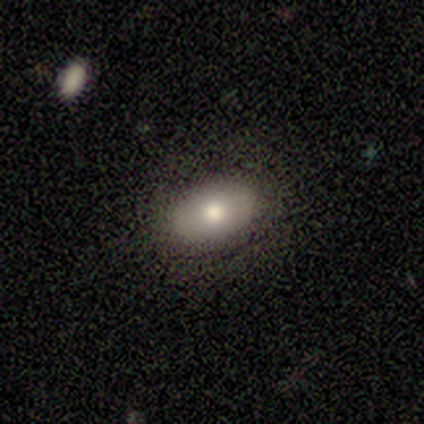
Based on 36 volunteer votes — Q: Smooth or featured?
A: smooth (69%); runner-up: featured or disk (17%)
Q: How rounded?
A: in between (84%); runner-up: round (12%)
Q: Merging?
A: none (77%); runner-up: minor disturbance (13%)